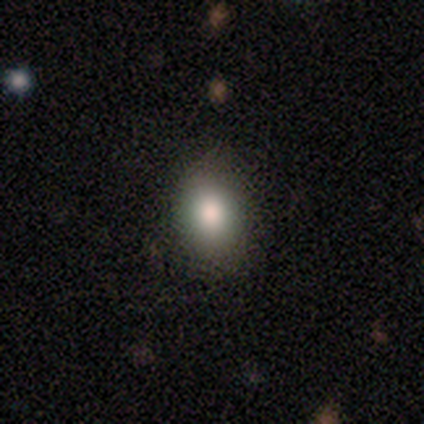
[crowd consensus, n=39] A smooth galaxy with no disk features (90%) that is in between round and cigar-shaped (77%). Merging: none (89%).